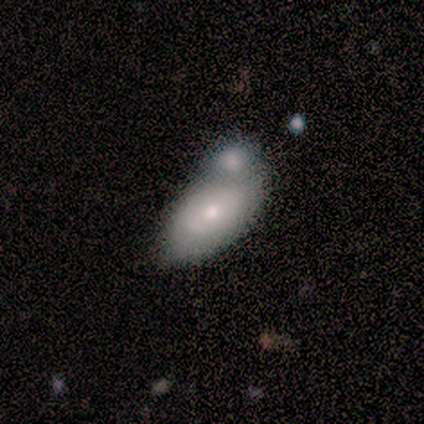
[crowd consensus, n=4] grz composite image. It shows a smooth galaxy with no disk features (75%) that is in between round and cigar-shaped (67%). Merging: merger (75%).